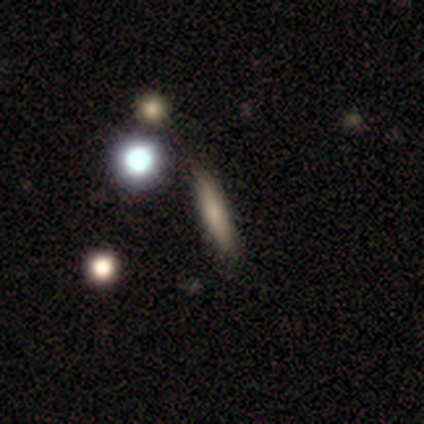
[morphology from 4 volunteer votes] Smooth or featured: smooth — 50% (tied with featured or disk — 50%)
How rounded: cigar-shaped — 100%
Merging: none — 75% (minor disturbance — 25%)